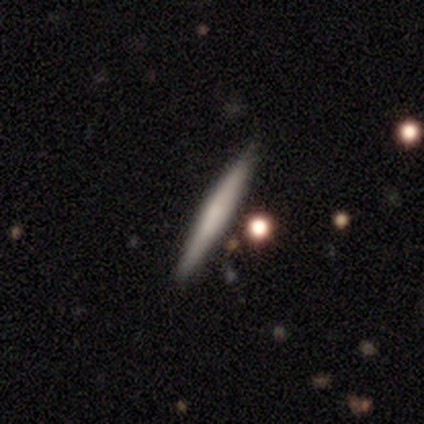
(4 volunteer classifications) featured or disk 50%, smooth 25%, star or artifact 25%. Down the decision tree: edge-on disk — yes (100%); edge-on bulge — none (100%); merging — none (100%).